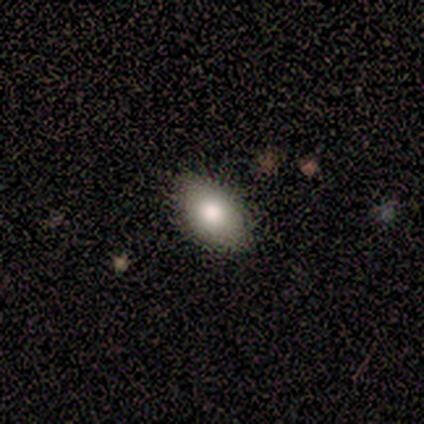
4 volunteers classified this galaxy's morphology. smooth-or-featured: smooth: 75% | star or artifact: 25% | featured or disk: 0%
  how-rounded: in between: 100% | round: 0% | cigar-shaped: 0%
  merging: none: 100% | minor disturbance: 0% | major disturbance: 0% | merger: 0%